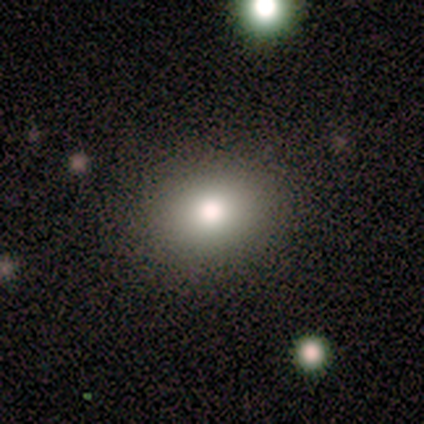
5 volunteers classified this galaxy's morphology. Q: Smooth or featured?
A: smooth (80%); runner-up: star or artifact (20%)
Q: How rounded?
A: in between (75%); runner-up: round (25%)
Q: Merging?
A: none (75%); runner-up: minor disturbance (25%)